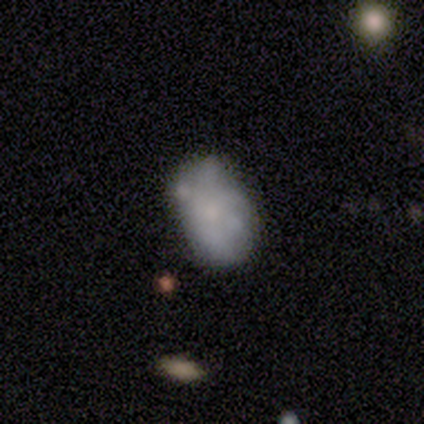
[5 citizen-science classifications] Smooth or featured? 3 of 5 (60%) said smooth. How rounded? 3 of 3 (100%) said in between. Merging? 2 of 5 (40%) said none.